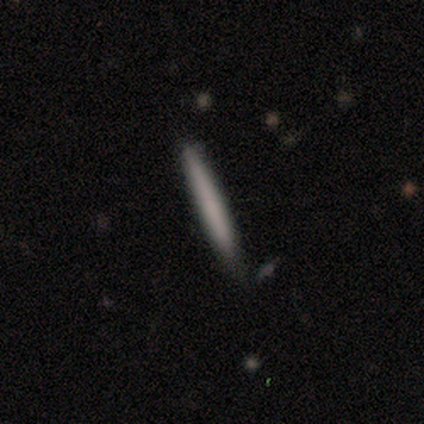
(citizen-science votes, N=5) Q: Smooth or featured?
A: smooth (80%); runner-up: star or artifact (20%)
Q: How rounded?
A: cigar-shaped (100%)
Q: Merging?
A: none (100%)